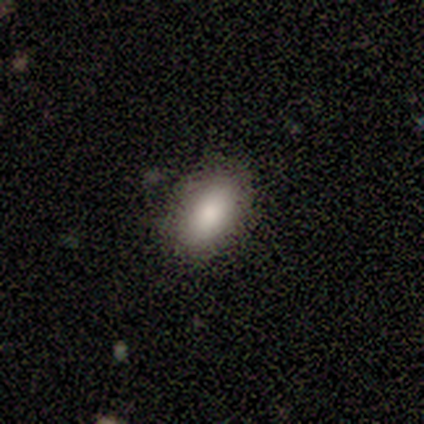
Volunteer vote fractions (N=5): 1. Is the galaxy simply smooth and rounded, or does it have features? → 80% smooth, 20% star or artifact, 0% featured or disk.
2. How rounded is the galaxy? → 100% in between, 0% round, 0% cigar-shaped.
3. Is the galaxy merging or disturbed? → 100% none, 0% minor disturbance, 0% major disturbance, 0% merger.